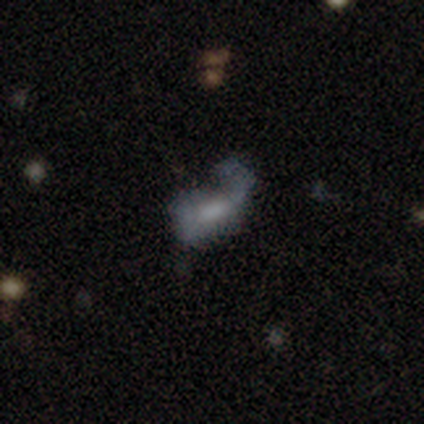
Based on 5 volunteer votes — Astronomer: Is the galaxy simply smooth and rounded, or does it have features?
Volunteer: smooth — 60% (runner-up: featured or disk, 40%).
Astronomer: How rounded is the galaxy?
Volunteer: in between — 100%.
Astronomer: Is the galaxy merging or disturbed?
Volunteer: major disturbance — 80%.